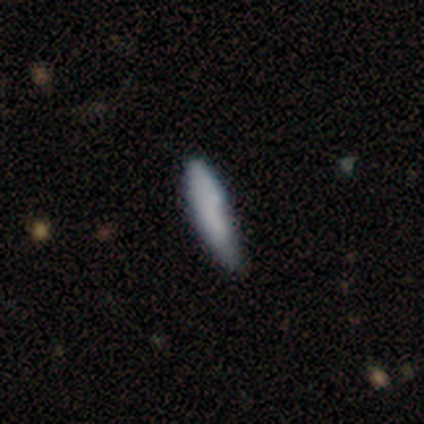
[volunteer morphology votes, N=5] Smooth or featured?
  - smooth: 80% *
  - featured or disk: 20%
  - star or artifact: 0%
How rounded?
  - cigar-shaped: 100% *
  - round: 0%
  - in between: 0%
Merging?
  - none: 60% *
  - minor disturbance: 40%
  - major disturbance: 0%
  - merger: 0%